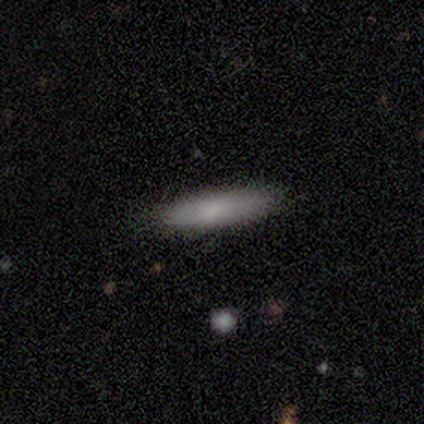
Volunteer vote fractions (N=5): Q: Smooth or featured?
A: smooth (80%); runner-up: featured or disk (20%)
Q: How rounded?
A: cigar-shaped (100%)
Q: Merging?
A: none (60%); runner-up: minor disturbance (20%)